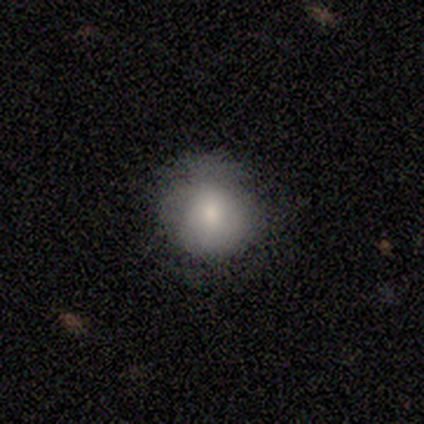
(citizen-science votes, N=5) smooth-or-featured: smooth: 60% | featured or disk: 40% | star or artifact: 0%
  how-rounded: round: 67% | in between: 33% | cigar-shaped: 0%
  merging: none: 60% | minor disturbance: 40% | major disturbance: 0% | merger: 0%